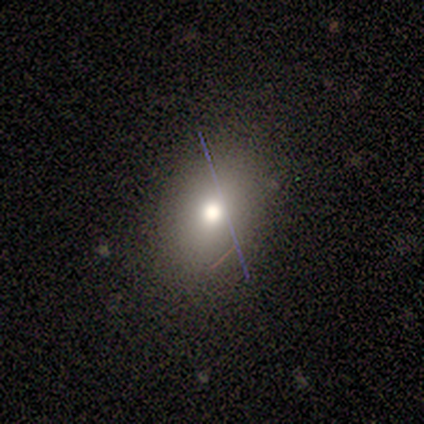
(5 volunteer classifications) Q: Smooth or featured?
A: smooth (80%); runner-up: featured or disk (20%)
Q: How rounded?
A: in between (100%)
Q: Merging?
A: none (80%); runner-up: minor disturbance (20%)